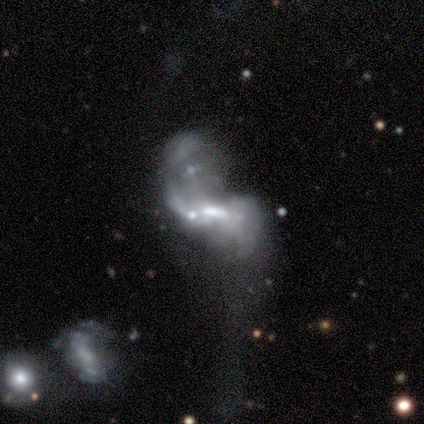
smooth_or_featured: featured or disk (p=0.78) [alt: star or artifact p=0.15]
disk_edge_on: no (p=1.00)
bar: weak (p=0.48) [alt: no p=0.33]
has_spiral_arms: yes (p=0.62) [alt: no p=0.38]
spiral_winding: loose (p=0.69) [alt: medium p=0.31]
spiral_arm_count: 2 (p=0.77) [alt: 3 p=0.08]
bulge_size: moderate (p=0.67) [alt: none p=0.19]
merging: merger (p=0.52) [alt: major disturbance p=0.30]